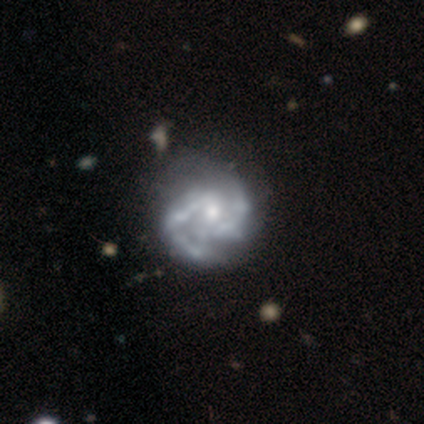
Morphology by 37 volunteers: Volunteers were most divided on "merging": none: 32%, major disturbance: 29%, minor disturbance: 18%, merger: 3%. More confident: edge-on disk — no (100%); spiral arm count — 2 (93%); spiral arms — yes (91%); smooth or featured — featured or disk (89%); spiral winding — medium (63%); bar — no (55%); bulge size — moderate (52%).